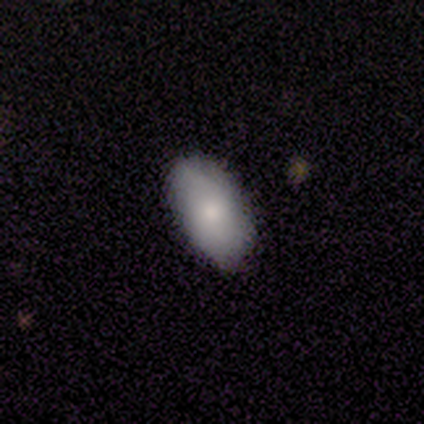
This is clearly a smooth galaxy (100%). How rounded: clearly in between (100%). Merging: clearly none (100%).